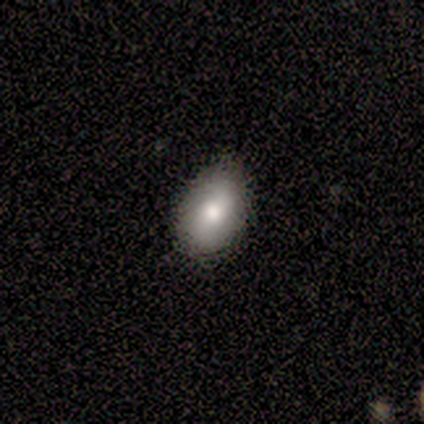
Smooth or featured?
  - smooth: 100% *
  - featured or disk: 0%
  - star or artifact: 0%
How rounded?
  - in between: 80% *
  - cigar-shaped: 20%
  - round: 0%
Merging?
  - none: 40% * (tied)
  - minor disturbance: 40% * (tied)
  - major disturbance: 20%
  - merger: 0%